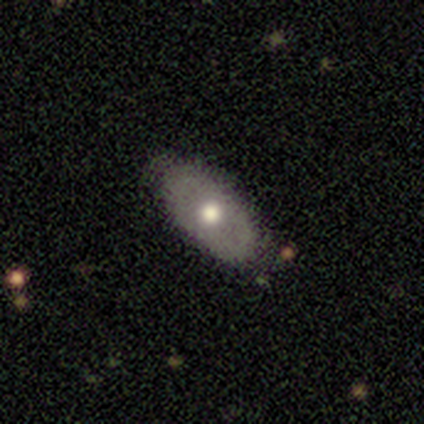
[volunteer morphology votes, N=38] This is possibly a smooth galaxy (55%). How rounded: clearly in between (90%). Merging: likely none (77%).